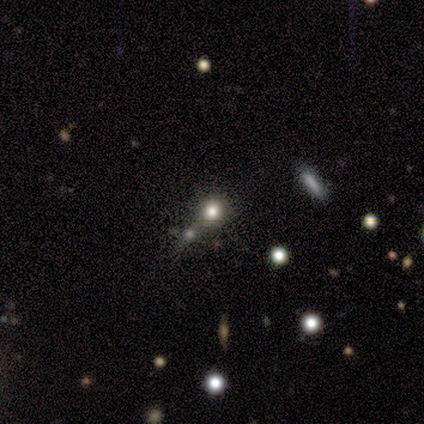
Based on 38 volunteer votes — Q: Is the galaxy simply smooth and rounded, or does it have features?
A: smooth — 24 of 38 (63%).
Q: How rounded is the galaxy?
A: round — 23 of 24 (96%).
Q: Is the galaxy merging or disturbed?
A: merger — 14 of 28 (50%).